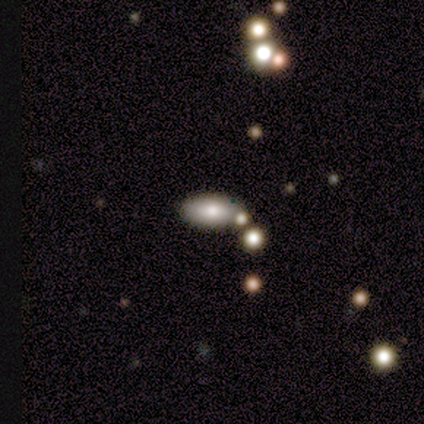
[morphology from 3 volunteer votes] Overall: smooth (100%). How rounded: in between (67%; cigar-shaped 33%). Merging: none (67%; minor disturbance 33%).